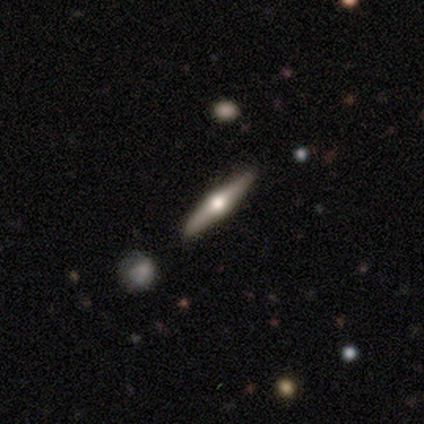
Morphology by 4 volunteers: This appears to be a featured or disk galaxy (100%) viewed edge-on (100%) with a rounded central bulge (75%). Merging: none (75%).